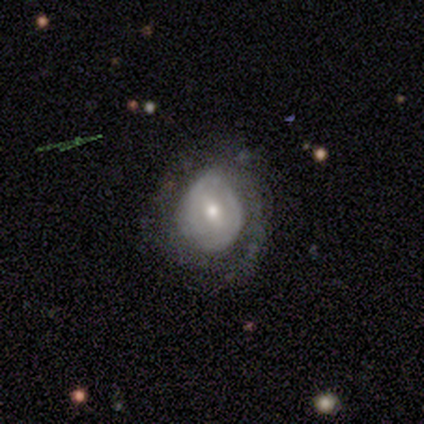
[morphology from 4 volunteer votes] featured or disk 75%, star or artifact 25%, smooth 0%. Down the decision tree: edge-on disk — no (100%); bar — strong (33%, tied with weak and no); spiral arms — no (67%); bulge size — small (67%); merging — none (67%).